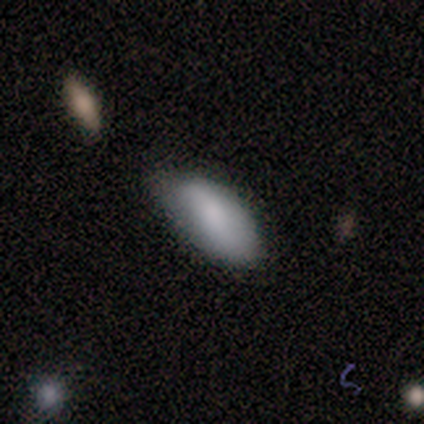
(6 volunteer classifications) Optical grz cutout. It shows a smooth galaxy with no disk features (100%) that is in between round and cigar-shaped (100%). Merging: none (83%).